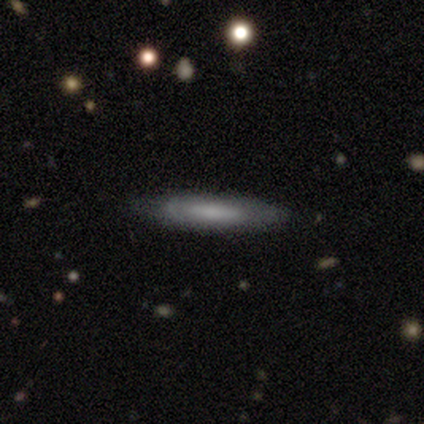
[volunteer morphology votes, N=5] smooth 60%, featured or disk 40%, star or artifact 0%. Down the decision tree: how rounded — in between (67%); merging — none (80%).